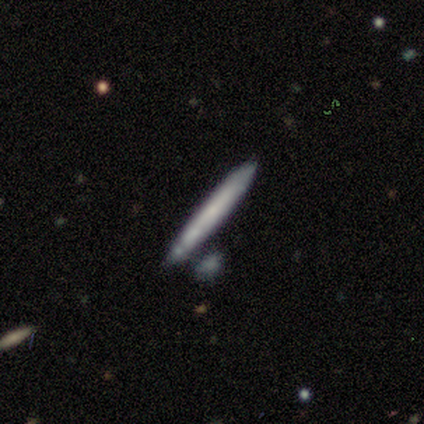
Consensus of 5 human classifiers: Morphology: type=featured or disk (60%); edge-on=yes (100%); edge-on bulge=none (100%); merging=none (80%).